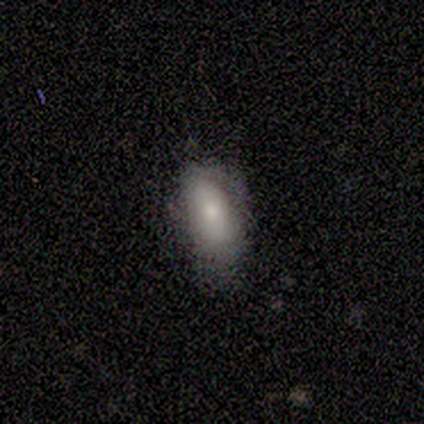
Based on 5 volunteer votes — Smooth or featured: smooth — 80% (featured or disk — 20%)
How rounded: in between — 100%
Merging: minor disturbance — 40% (tied with major disturbance — 40%)